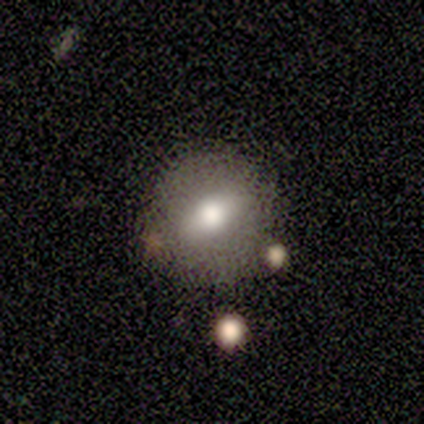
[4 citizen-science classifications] This appears to be a smooth galaxy with no disk features (50%) that is round (50%, tied with in between). Merging: none (67%).